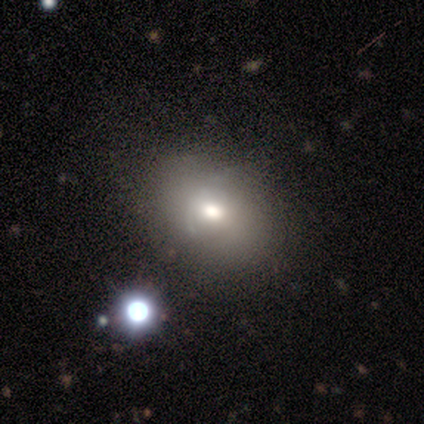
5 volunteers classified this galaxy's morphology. This is clearly a smooth galaxy (100%). How rounded: clearly in between (80%). Merging: likely minor disturbance (60%).